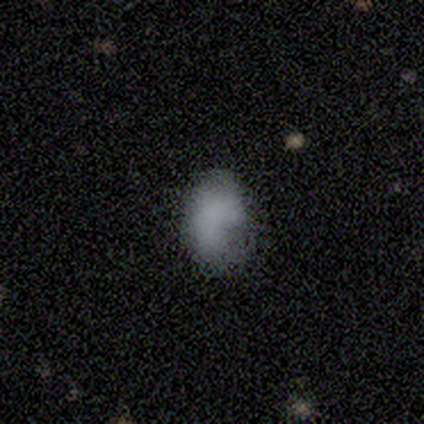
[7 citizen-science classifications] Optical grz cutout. It shows a smooth galaxy with no disk features (57%) that is in between round and cigar-shaped (100%). Merging: minor disturbance (50%).